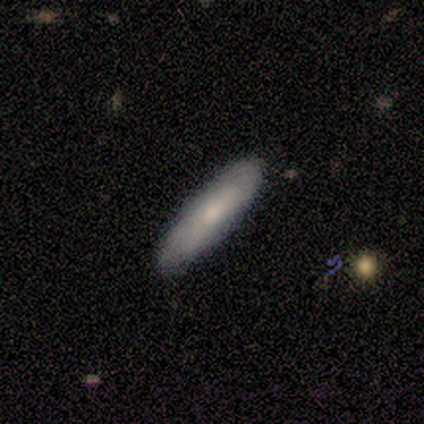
This is clearly a smooth galaxy (80%). How rounded: likely cigar-shaped (75%). Merging: clearly none (100%).